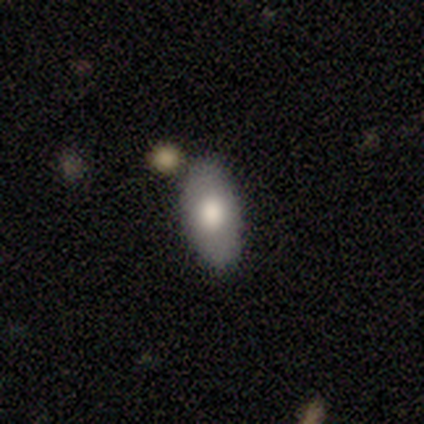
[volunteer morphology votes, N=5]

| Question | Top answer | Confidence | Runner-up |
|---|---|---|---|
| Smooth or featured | smooth | 80% | star or artifact (20%) |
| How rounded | in between | 100% | — |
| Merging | none | 100% | — |